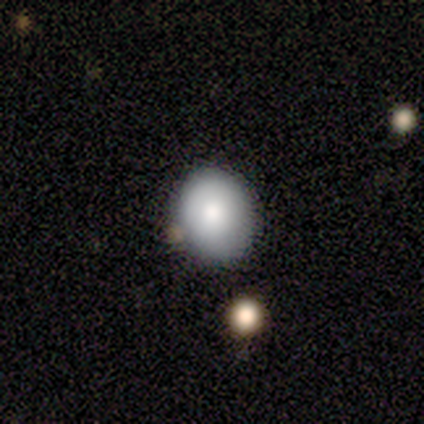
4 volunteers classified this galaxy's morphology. smooth 100%, featured or disk 0%, star or artifact 0%. Down the decision tree: how rounded — round (75%); merging — none (50%, tied with minor disturbance).